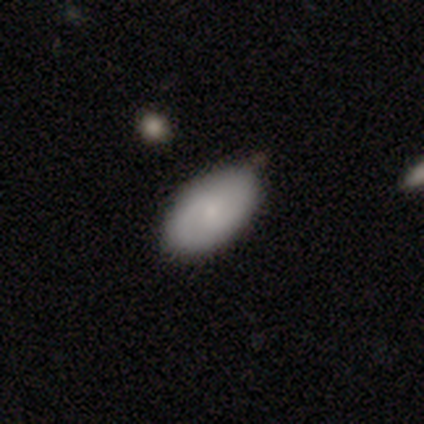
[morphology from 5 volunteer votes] This is likely a featured or disk galaxy (60%). It is clearly not viewed edge-on (100%). Bar: likely weak (67%). Spiral arm pattern: likely yes (67%). Spiral arm count: clearly 2 (100%). Spiral winding: possibly tight (50%, tied with medium). Central bulge: clearly small (100%). Merging: clearly none (80%).